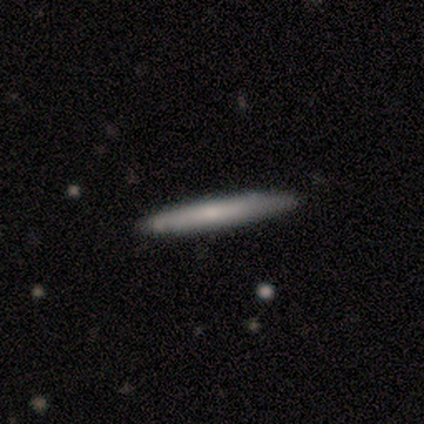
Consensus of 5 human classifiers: A smooth galaxy with no disk features (100%) that is cigar-shaped (100%). Merging: none (100%).